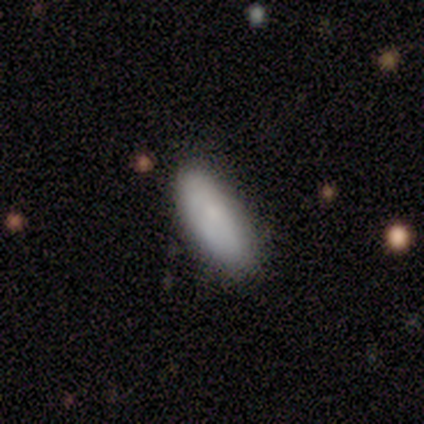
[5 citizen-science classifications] Morphology: type=smooth (80%); roundness=in between (75%); merging=none (80%).